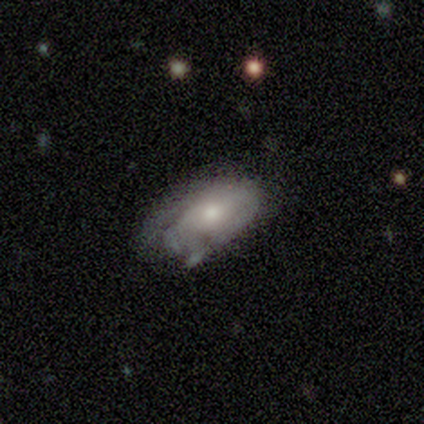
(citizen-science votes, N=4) smooth-or-featured: smooth: 50% (tied) | featured or disk: 50% (tied) | star or artifact: 0%
  how-rounded: round: 100% | in between: 0% | cigar-shaped: 0%
  merging: minor disturbance: 50% | none: 25% | merger: 25% | major disturbance: 0%